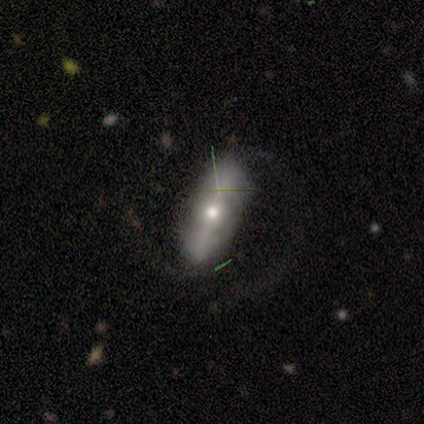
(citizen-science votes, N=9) Q: Smooth or featured?
A: featured or disk (67%); runner-up: smooth (33%)
Q: Edge-on disk?
A: yes (50%); tied with: no (50%)
Q: Edge-on bulge?
A: rounded (100%)
Q: Merging?
A: none (78%); runner-up: minor disturbance (11%)